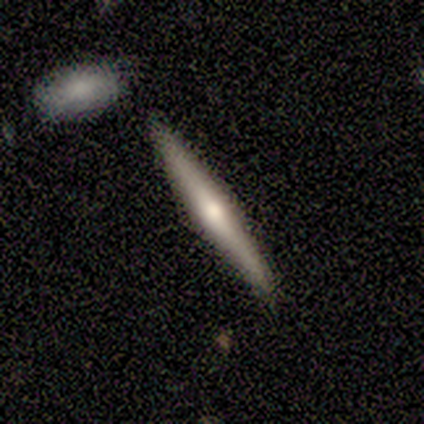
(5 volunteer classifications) smooth-or-featured: featured or disk: 80% | star or artifact: 20% | smooth: 0%
  disk-edge-on: yes: 100% | no: 0%
    edge-on-bulge: rounded: 75% | boxy: 25% | none: 0%
  merging: none: 100% | minor disturbance: 0% | major disturbance: 0% | merger: 0%